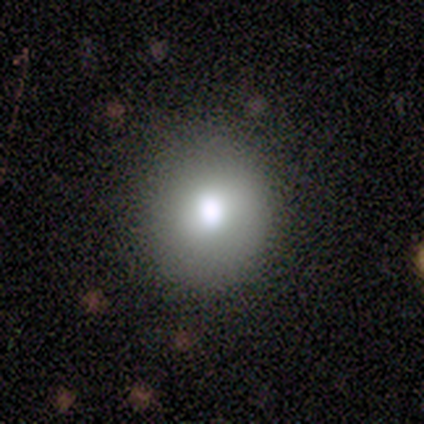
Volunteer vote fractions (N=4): A smooth galaxy with no disk features (75%) that is round (100%). Merging: none (100%).